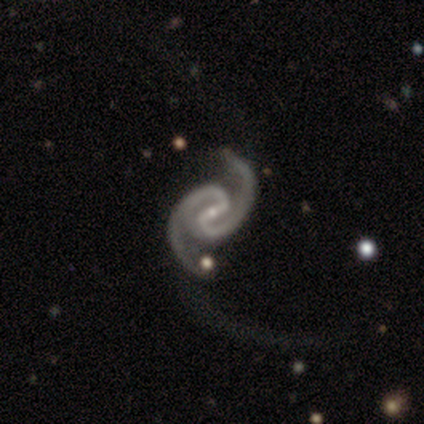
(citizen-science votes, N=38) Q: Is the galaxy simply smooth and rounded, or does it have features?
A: featured or disk — 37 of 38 (97%).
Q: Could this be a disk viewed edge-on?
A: no — 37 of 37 (100%).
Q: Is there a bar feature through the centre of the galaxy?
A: strong — 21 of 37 (57%).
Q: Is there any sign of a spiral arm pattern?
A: yes — 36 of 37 (97%).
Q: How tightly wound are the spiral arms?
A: medium — 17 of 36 (47%).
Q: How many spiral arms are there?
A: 2 — 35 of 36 (97%).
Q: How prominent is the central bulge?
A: small — 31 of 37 (84%).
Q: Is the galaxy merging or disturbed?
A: none — 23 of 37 (62%).